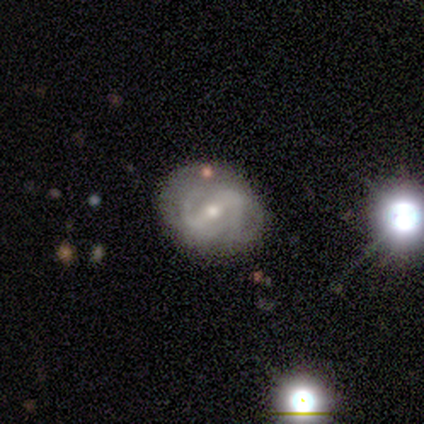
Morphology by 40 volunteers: smooth-or-featured: featured or disk: 88% | smooth: 12% | star or artifact: 0%
  disk-edge-on: no: 97% | yes: 3%
    bar: strong: 53% | weak: 38% | no: 9%
    has-spiral-arms: yes: 88% | no: 12%
      spiral-winding: medium: 57% | tight: 30% | loose: 13%
      spiral-arm-count: 2: 70% | can't tell: 27% | 1: 3% | 3: 0% | 4: 0% | more than 4: 0%
    bulge-size: small: 56% | moderate: 41% | none: 3% | dominant: 0% | large: 0%
  merging: none: 68% | minor disturbance: 25% | major disturbance: 5% | merger: 2%